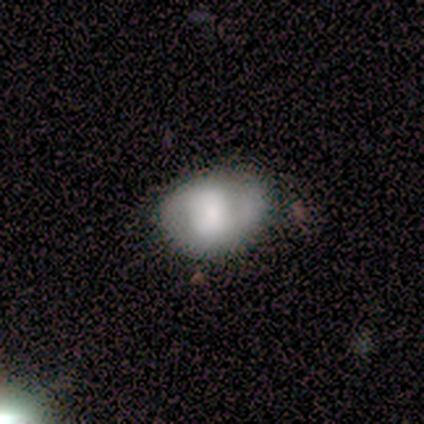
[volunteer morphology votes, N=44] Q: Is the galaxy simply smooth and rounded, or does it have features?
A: smooth — 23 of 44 (52%).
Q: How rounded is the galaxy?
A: in between — 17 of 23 (74%).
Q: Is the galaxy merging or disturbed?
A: none — 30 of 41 (73%).